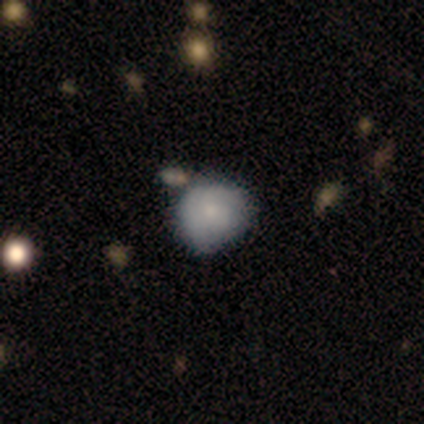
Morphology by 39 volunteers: Smooth or featured? smooth (74%)
How rounded? round (83%)
Merging? none (65%)